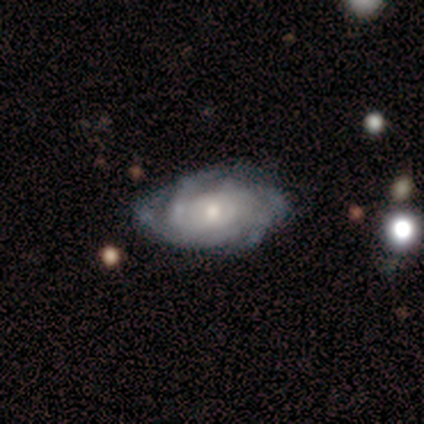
This is clearly a featured or disk galaxy (100%). It is clearly not viewed edge-on (100%). Bar: likely no (60%). Spiral arm pattern: clearly yes (100%). Spiral arm count: marginally can't tell (40%). Spiral winding: likely tight (60%). Central bulge: likely small (60%). Merging: clearly none (80%).